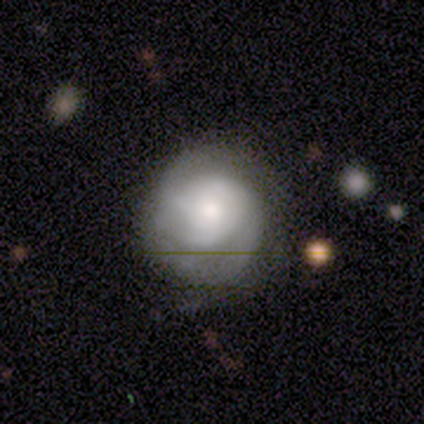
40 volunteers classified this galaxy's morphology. Smooth or featured: featured or disk — 57% (smooth — 32%)
Edge-on disk: no — 100%
Bar: no — 87% (weak — 9%)
Spiral arms: yes — 96% (no — 4%)
Spiral winding: tight — 59% (medium — 27%)
Spiral arm count: 3 — 59% (can't tell — 32%)
Bulge size: small — 39% (moderate — 35%)
Merging: none — 67% (minor disturbance — 25%)